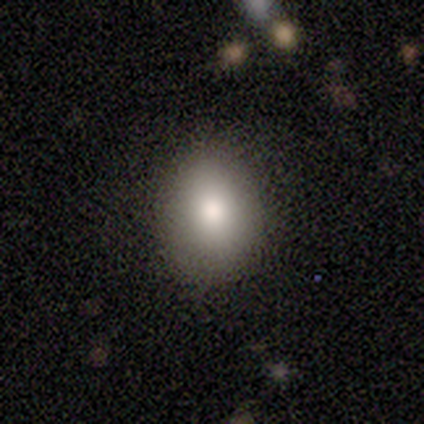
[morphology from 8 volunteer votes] Smooth or featured?
  - smooth: 75% *
  - featured or disk: 12%
  - star or artifact: 12%
How rounded?
  - round: 50% * (tied)
  - in between: 50% * (tied)
  - cigar-shaped: 0%
Merging?
  - none: 86% *
  - minor disturbance: 14%
  - major disturbance: 0%
  - merger: 0%